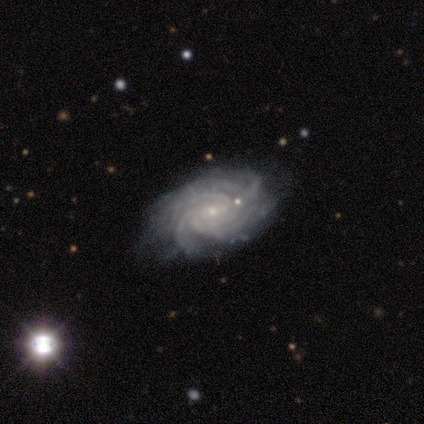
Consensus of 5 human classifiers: A featured or disk galaxy (100%) with no bar (80%), 4 (40%, tied with more than 4) medium (60%) spiral arms (100%) and a small central bulge (100%). Merging: none (80%).